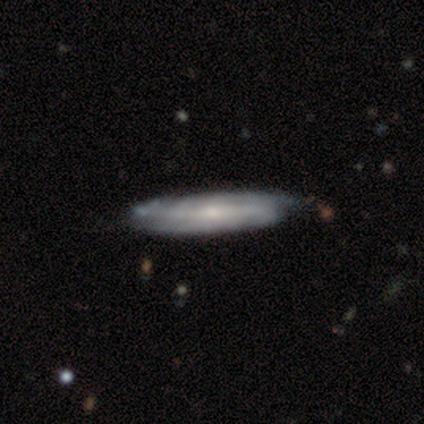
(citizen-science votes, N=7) smooth-or-featured: featured or disk: 71% | smooth: 29% | star or artifact: 0%
  disk-edge-on: yes: 60% | no: 40%
    edge-on-bulge: none: 67% | rounded: 33% | boxy: 0%
  merging: none: 86% | minor disturbance: 14% | major disturbance: 0% | merger: 0%